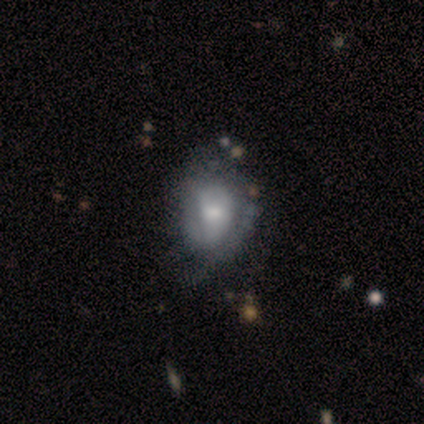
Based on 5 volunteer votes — smooth_or_featured: featured or disk (p=0.40) [tied with: star or artifact p=0.40]
disk_edge_on: no (p=1.00)
bar: no (p=1.00)
has_spiral_arms: yes (p=0.50) [tied with: no p=0.50]
spiral_winding: loose (p=1.00)
spiral_arm_count: can't tell (p=1.00)
bulge_size: moderate (p=0.50) [tied with: small p=0.50]
merging: none (p=1.00)